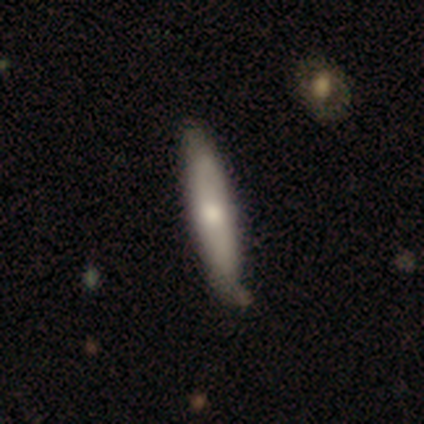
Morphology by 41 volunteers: A smooth galaxy with no disk features (68%) that is cigar-shaped (86%). Merging: none (61%).